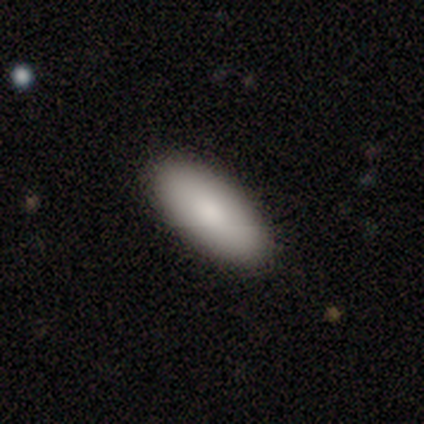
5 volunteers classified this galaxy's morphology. Volunteers were most divided on "how rounded": in between: 80%, cigar-shaped: 20%, round: 0%. More confident: smooth or featured — smooth (100%); merging — none (80%).